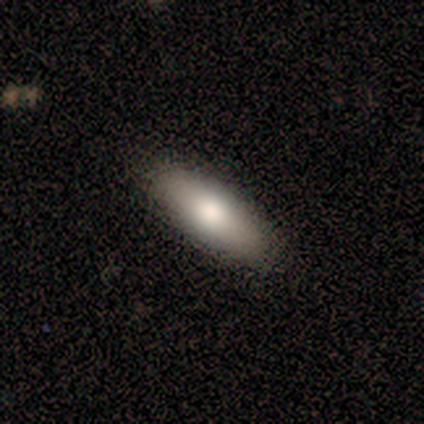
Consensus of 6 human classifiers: This is clearly a smooth galaxy (83%). How rounded: likely in between (60%). Merging: clearly none (100%).